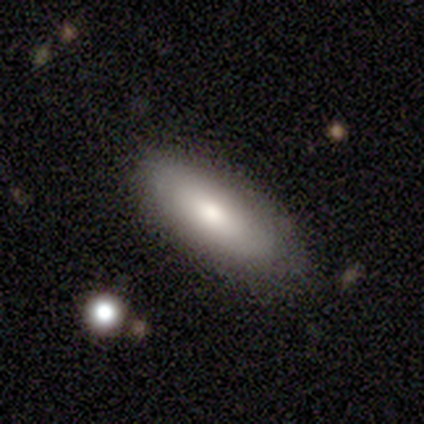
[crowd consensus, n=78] Smooth or featured: smooth — 82% (featured or disk — 14%)
How rounded: in between — 83% (cigar-shaped — 16%)
Merging: none — 48% (minor disturbance — 8%)